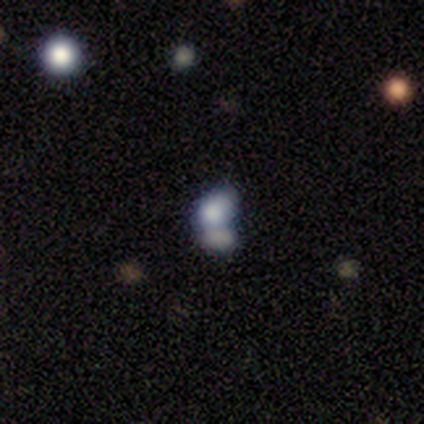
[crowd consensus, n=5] A smooth galaxy with no disk features (100%) that is in between round and cigar-shaped (80%).

Vote fractions:
- Smooth or featured? smooth: 100% / featured or disk: 0% / star or artifact: 0%
- How rounded? in between: 80% / round: 20% / cigar-shaped: 0%
- Merging? minor disturbance: 40% / none: 20% / major disturbance: 20% / merger: 20%